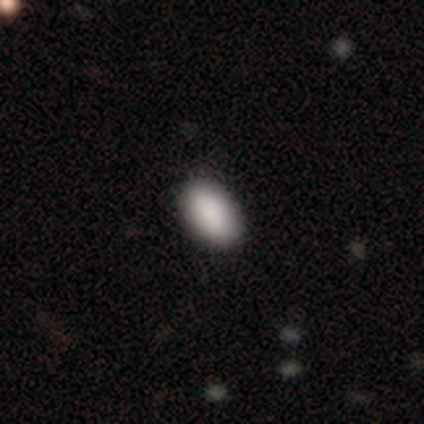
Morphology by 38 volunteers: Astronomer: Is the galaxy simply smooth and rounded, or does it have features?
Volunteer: smooth — 100%.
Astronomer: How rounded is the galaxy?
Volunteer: in between — 95%.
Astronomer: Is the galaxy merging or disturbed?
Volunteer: none — 63%.